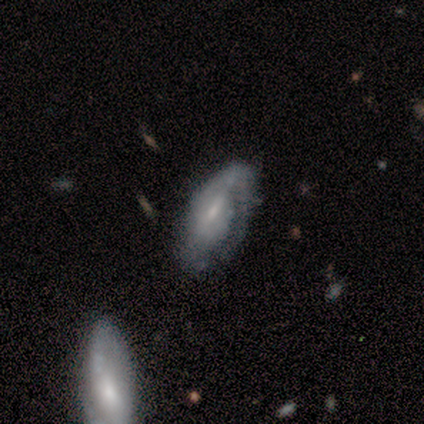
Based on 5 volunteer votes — Smooth or featured? featured or disk (100%)
Edge-on disk? no (100%)
Bar? no (60%)
Spiral arms? yes (100%)
Spiral winding? loose (60%)
Spiral arm count? 1 (60%)
Bulge size? moderate (40%, tied with small)
Merging? none (80%)